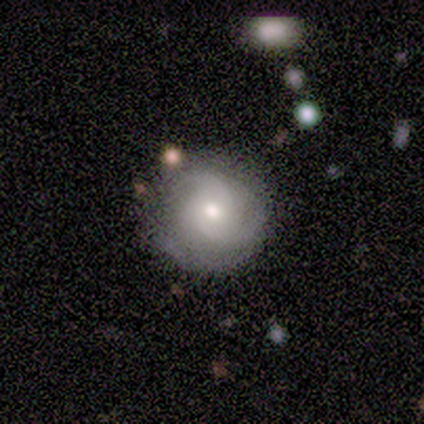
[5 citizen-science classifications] Volunteers were most divided on "merging": minor disturbance: 60%, none: 40%, major disturbance: 0%, merger: 0%. More confident: edge-on disk — no (100%); smooth or featured — featured or disk (80%); bar — no (75%); spiral arms — yes (75%); spiral winding — tight (67%); spiral arm count — can't tell (67%); bulge size — moderate (50%).